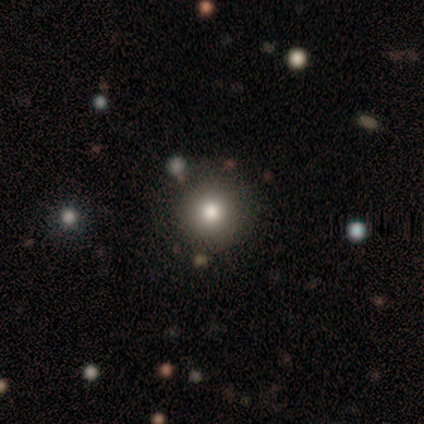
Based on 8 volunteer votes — Smooth or featured?
  - smooth: 75% *
  - featured or disk: 12%
  - star or artifact: 12%
How rounded?
  - round: 100% *
  - in between: 0%
  - cigar-shaped: 0%
Merging?
  - none: 86% *
  - major disturbance: 14%
  - minor disturbance: 0%
  - merger: 0%